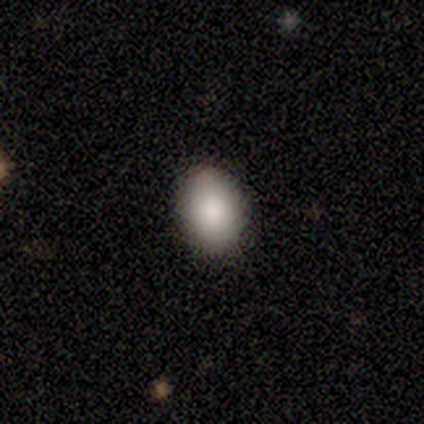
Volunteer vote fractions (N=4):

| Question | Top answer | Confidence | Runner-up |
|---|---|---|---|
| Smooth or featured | smooth | 75% | featured or disk (25%) |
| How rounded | in between | 67% | round (33%) |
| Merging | none | 75% | minor disturbance (25%) |